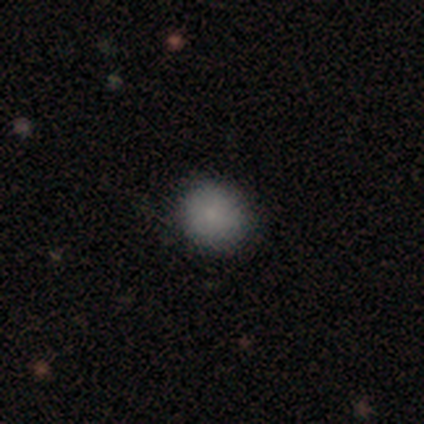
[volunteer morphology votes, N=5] smooth-or-featured: smooth: 100% | featured or disk: 0% | star or artifact: 0%
  how-rounded: round: 100% | in between: 0% | cigar-shaped: 0%
  merging: none: 80% | minor disturbance: 20% | major disturbance: 0% | merger: 0%